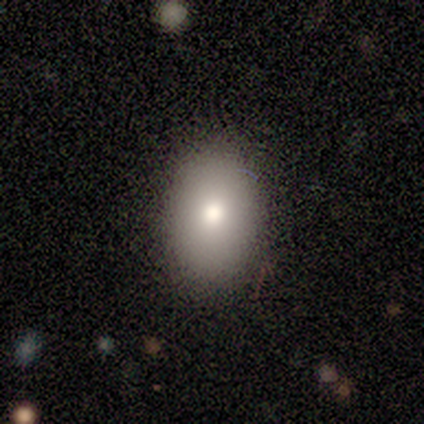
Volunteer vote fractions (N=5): Morphology: type=smooth (80%); roundness=in between (100%); merging=none (80%).